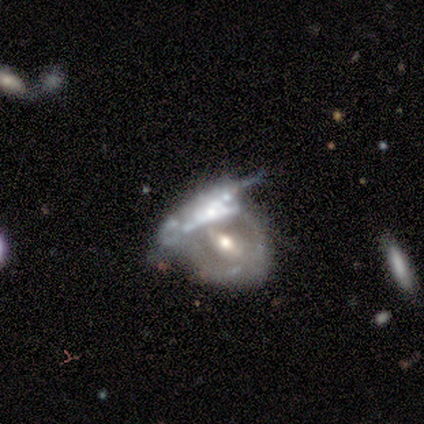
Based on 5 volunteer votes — featured or disk 100%, smooth 0%, star or artifact 0%. Down the decision tree: edge-on disk — no (100%); bar — no (60%); spiral arms — no (80%); bulge size — moderate (80%); merging — merger (60%).